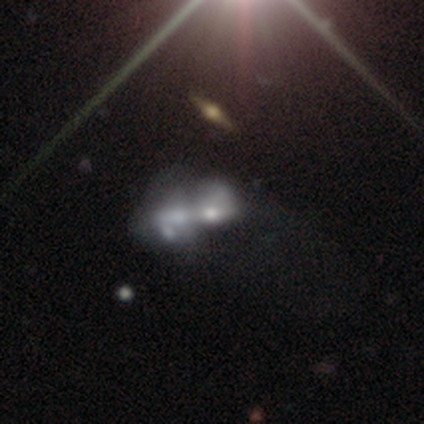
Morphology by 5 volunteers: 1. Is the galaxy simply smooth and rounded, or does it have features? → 40% smooth (tied), 40% featured or disk (tied), 20% star or artifact.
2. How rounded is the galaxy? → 100% in between, 0% round, 0% cigar-shaped.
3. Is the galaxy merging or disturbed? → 50% major disturbance, 25% none, 25% merger, 0% minor disturbance.